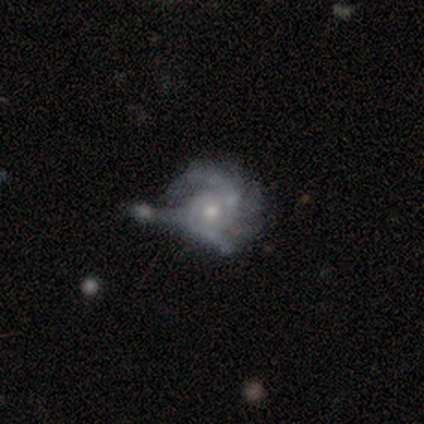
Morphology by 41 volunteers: Q: Smooth or featured?
A: featured or disk (88%); runner-up: smooth (7%)
Q: Edge-on disk?
A: no (100%)
Q: Bar?
A: no (81%); runner-up: weak (19%)
Q: Spiral arms?
A: yes (94%); runner-up: no (6%)
Q: Spiral winding?
A: tight (47%); runner-up: medium (38%)
Q: Spiral arm count?
A: 2 (62%); runner-up: 3 (18%)
Q: Bulge size?
A: moderate (67%); runner-up: small (28%)
Q: Merging?
A: major disturbance (41%); runner-up: merger (33%)